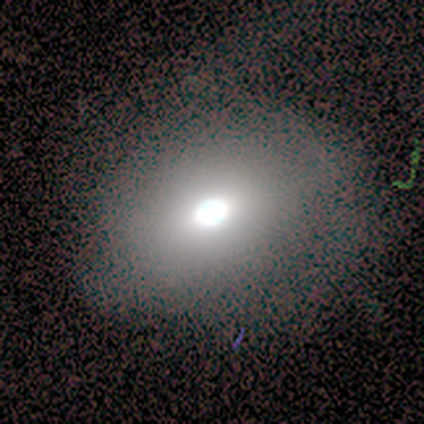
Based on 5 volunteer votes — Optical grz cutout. It shows a smooth galaxy with no disk features (60%) that is round (67%). Merging: none (80%).